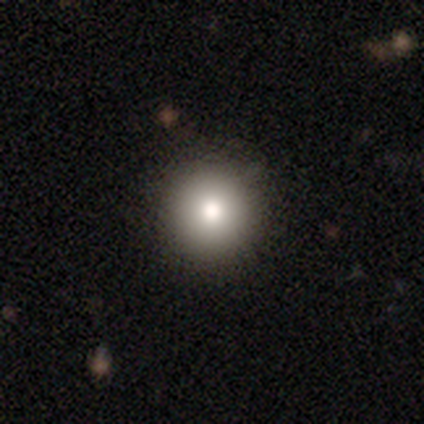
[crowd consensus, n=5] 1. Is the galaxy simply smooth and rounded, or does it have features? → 80% smooth, 20% featured or disk, 0% star or artifact.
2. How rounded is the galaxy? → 100% round, 0% in between, 0% cigar-shaped.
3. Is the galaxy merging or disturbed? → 100% none, 0% minor disturbance, 0% major disturbance, 0% merger.